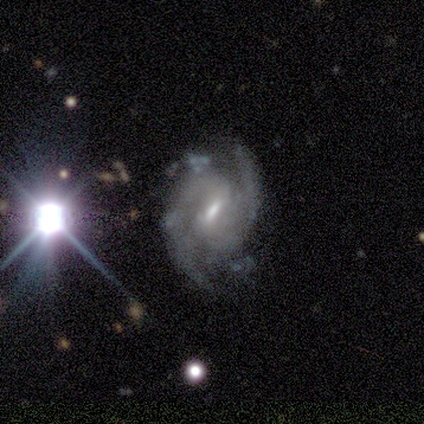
This appears to be a featured or disk galaxy (75%) with a weak bar (100%), 2 (33%, tied with 3 and can't tell) tight (67%) spiral arms (100%) and a small central bulge (100%). Merging: none (67%).